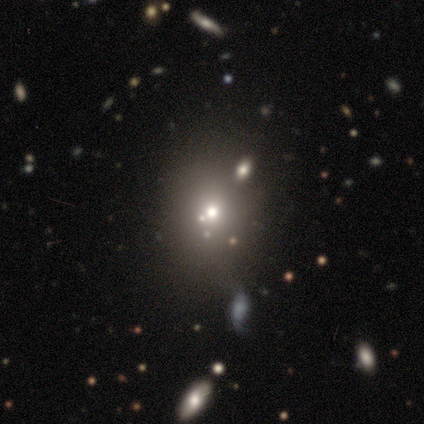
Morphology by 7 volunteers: star or artifact 57%, smooth 29%, featured or disk 14%.